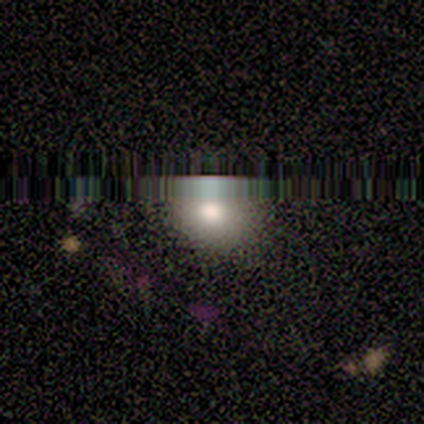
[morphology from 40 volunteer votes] Volunteers were most divided on "smooth or featured": star or artifact: 48%, smooth: 42%, featured or disk: 10%.